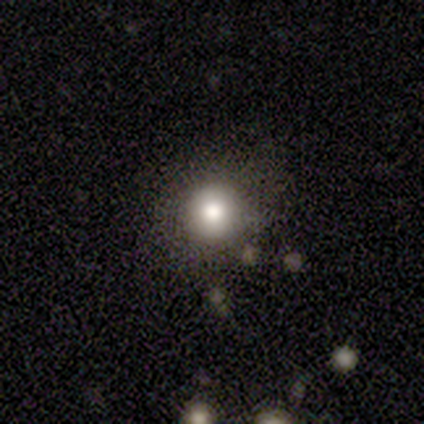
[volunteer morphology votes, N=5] smooth 100%, featured or disk 0%, star or artifact 0%. Down the decision tree: how rounded — round (100%); merging — none (60%).